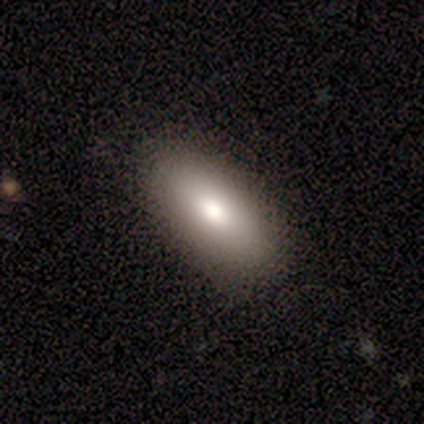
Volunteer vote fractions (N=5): smooth 80%, featured or disk 20%, star or artifact 0%. Down the decision tree: how rounded — in between (100%); merging — none (60%).